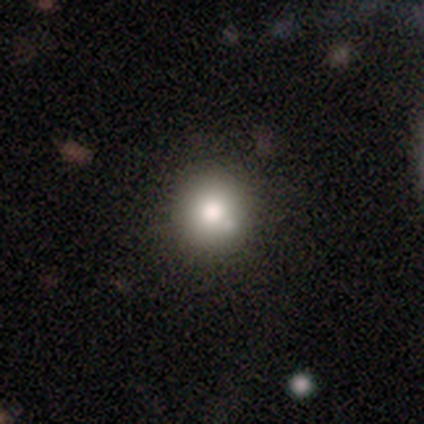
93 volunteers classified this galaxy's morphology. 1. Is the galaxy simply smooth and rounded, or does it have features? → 68% smooth, 17% featured or disk, 15% star or artifact.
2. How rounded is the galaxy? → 98% round, 2% in between, 0% cigar-shaped.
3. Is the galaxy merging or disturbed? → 78% none, 15% minor disturbance, 4% merger, 3% major disturbance.